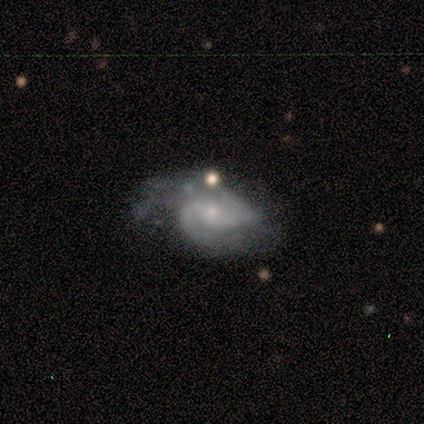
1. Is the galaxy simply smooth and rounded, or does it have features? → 75% featured or disk, 25% smooth, 0% star or artifact.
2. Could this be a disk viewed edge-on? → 100% no, 0% yes.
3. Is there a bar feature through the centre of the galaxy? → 83% no, 17% weak, 0% strong.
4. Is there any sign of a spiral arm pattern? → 100% yes, 0% no.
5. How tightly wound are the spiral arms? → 67% medium, 33% tight, 0% loose.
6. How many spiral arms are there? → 100% 2, 0% 1, 0% 3, 0% 4, 0% more than 4, 0% can't tell.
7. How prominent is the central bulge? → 67% small, 33% moderate, 0% dominant, 0% large, 0% none.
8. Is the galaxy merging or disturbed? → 50% minor disturbance, 38% none, 12% major disturbance, 0% merger.